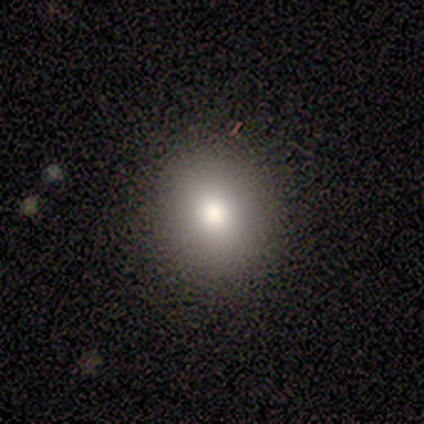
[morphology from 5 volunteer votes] Volunteers were most divided on "smooth or featured": smooth: 60%, featured or disk: 40%, star or artifact: 0%. More confident: how rounded — round (100%); merging — none (100%).